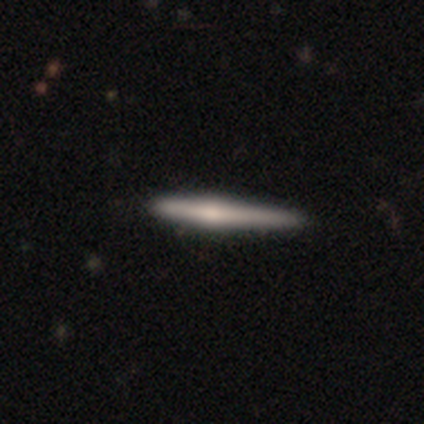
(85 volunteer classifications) smooth_or_featured: featured or disk (p=0.59) [alt: smooth p=0.35]
disk_edge_on: yes (p=0.98) [alt: no p=0.02]
edge_on_bulge: rounded (p=0.82) [alt: boxy p=0.10]
merging: none (p=0.82) [alt: minor disturbance p=0.14]